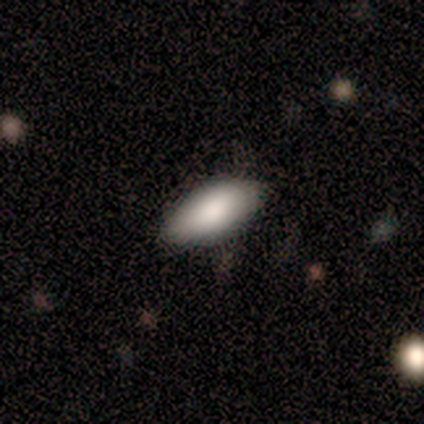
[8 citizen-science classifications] A smooth galaxy with no disk features (75%) that is in between round and cigar-shaped (100%).

Vote fractions:
- Smooth or featured? smooth: 75% / featured or disk: 25% / star or artifact: 0%
- How rounded? in between: 100% / round: 0% / cigar-shaped: 0%
- Merging? none: 88% / minor disturbance: 12% / major disturbance: 0% / merger: 0%